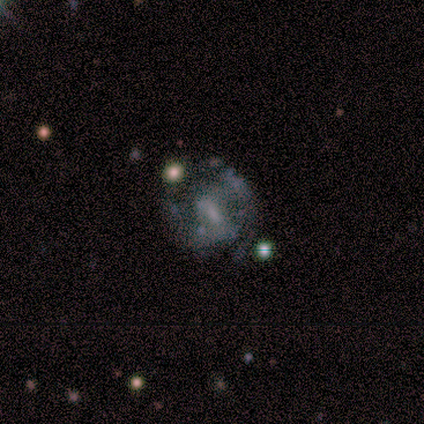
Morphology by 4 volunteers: Volunteers were most divided on "smooth or featured" (2-way tie): featured or disk: 50%, star or artifact: 50%, smooth: 0%; "bar" (2-way tie): weak: 50%, no: 50%, strong: 0%; "spiral winding" (2-way tie): medium: 50%, loose: 50%, tight: 0%; "spiral arm count" (2-way tie): 2: 50%, can't tell: 50%, 1: 0%, 3: 0%, 4: 0%, more than 4: 0%. More confident: edge-on disk — no (100%); spiral arms — yes (100%); bulge size — small (100%); merging — none (100%).